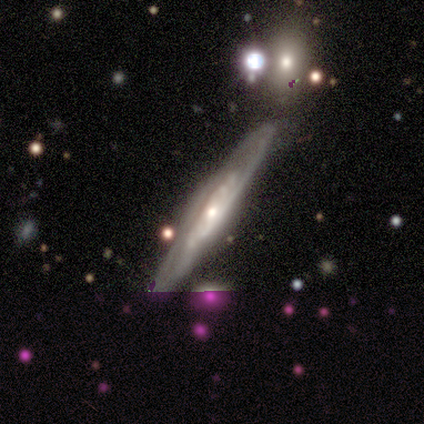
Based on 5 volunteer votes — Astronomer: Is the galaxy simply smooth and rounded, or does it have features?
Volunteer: featured or disk — 80%.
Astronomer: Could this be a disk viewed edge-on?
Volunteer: yes — 50%, tied with no at 50%.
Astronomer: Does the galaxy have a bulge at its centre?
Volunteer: none — 50%, tied with rounded at 50%.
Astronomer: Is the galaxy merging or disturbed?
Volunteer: none — 75%.